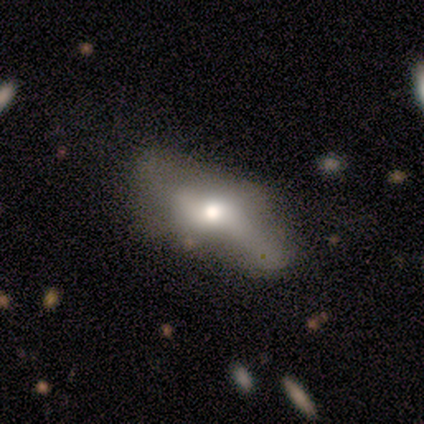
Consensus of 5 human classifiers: Morphology: type=smooth (60%); roundness=in between (100%); merging=minor disturbance (40%).